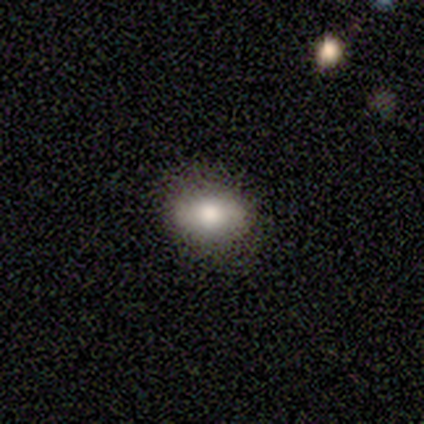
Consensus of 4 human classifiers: Smooth or featured? smooth (100%)
How rounded? round (100%)
Merging? none (100%)